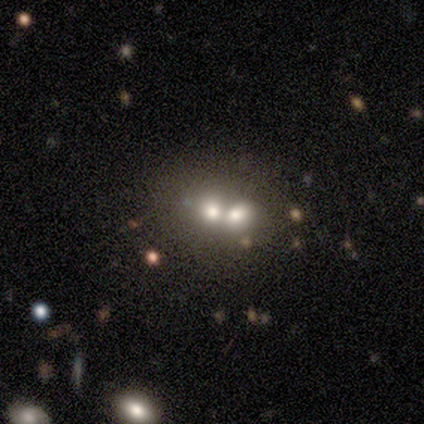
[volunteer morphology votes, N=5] Q: Smooth or featured?
A: featured or disk (80%); runner-up: smooth (20%)
Q: Edge-on disk?
A: no (100%)
Q: Bar?
A: no (75%); runner-up: weak (25%)
Q: Spiral arms?
A: no (100%)
Q: Bulge size?
A: moderate (50%); tied with: small (50%)
Q: Merging?
A: merger (60%); runner-up: none (20%)